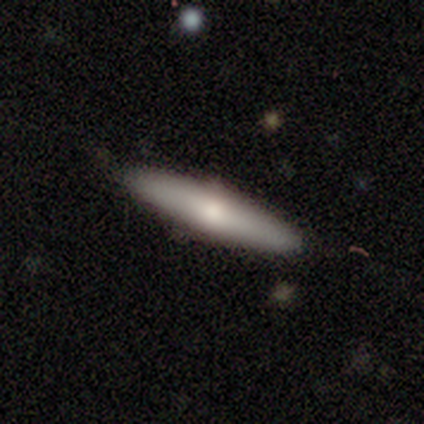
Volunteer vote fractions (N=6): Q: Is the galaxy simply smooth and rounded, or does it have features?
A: smooth — 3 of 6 (50%, tied with featured or disk).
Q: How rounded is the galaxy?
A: cigar-shaped — 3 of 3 (100%).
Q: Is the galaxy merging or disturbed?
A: none — 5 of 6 (83%).